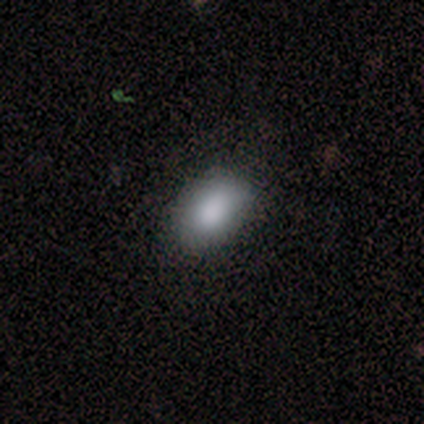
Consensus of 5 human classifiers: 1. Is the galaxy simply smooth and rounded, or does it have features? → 80% smooth, 20% star or artifact, 0% featured or disk.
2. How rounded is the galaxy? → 100% in between, 0% round, 0% cigar-shaped.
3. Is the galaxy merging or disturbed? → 75% none, 25% minor disturbance, 0% major disturbance, 0% merger.